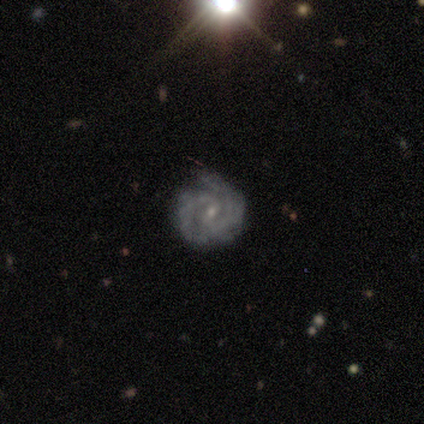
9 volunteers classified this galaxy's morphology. Volunteers were most divided on "bar": weak: 50%, no: 38%, strong: 12%. More confident: edge-on disk — no (100%); spiral arms — yes (100%); bulge size — small (100%); smooth or featured — featured or disk (89%); merging — none (88%); spiral arm count — 2 (75%); spiral winding — tight (62%).